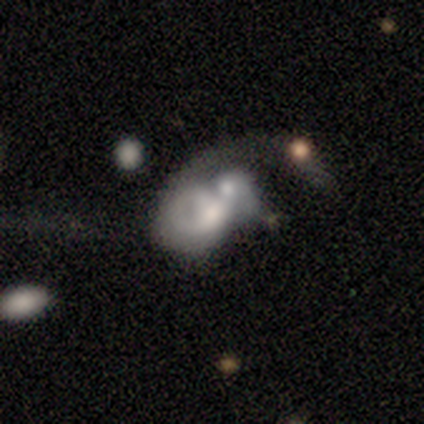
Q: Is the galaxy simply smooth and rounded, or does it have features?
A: featured or disk — 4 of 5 (80%).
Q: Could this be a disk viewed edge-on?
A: no — 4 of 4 (100%).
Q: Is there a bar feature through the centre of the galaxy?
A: no — 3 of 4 (75%).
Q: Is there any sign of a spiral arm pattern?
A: yes — 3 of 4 (75%).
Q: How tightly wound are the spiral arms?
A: loose — 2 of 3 (67%).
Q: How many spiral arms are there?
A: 1 — 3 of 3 (100%).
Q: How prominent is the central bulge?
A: moderate — 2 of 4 (50%).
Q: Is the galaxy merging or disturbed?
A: merger — 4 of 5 (80%).